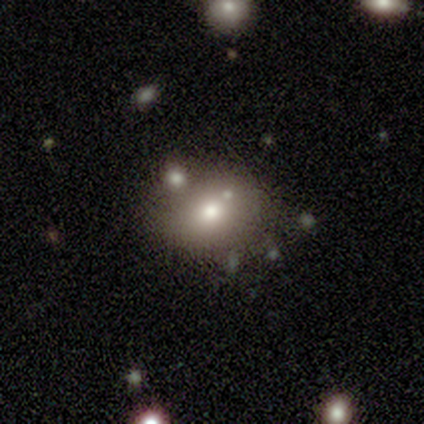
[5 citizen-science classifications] Smooth or featured: smooth — 40% (tied with star or artifact — 40%)
How rounded: round — 50% (tied with in between — 50%)
Merging: none — 67% (minor disturbance — 33%)